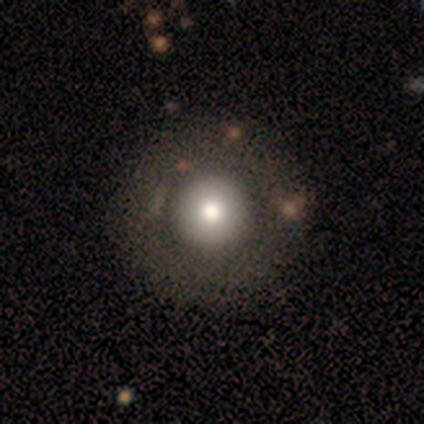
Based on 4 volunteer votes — A smooth galaxy with no disk features (100%) that is round (100%). Merging: none (100%).